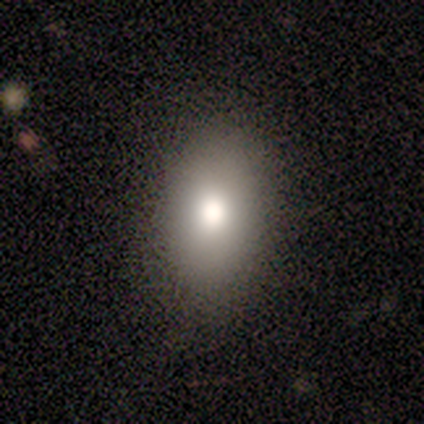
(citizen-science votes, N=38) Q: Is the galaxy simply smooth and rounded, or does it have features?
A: smooth — 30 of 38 (79%).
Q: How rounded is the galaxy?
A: in between — 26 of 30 (87%).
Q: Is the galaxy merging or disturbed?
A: none — 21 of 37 (57%).